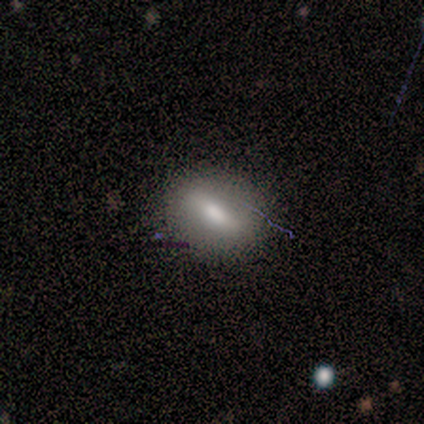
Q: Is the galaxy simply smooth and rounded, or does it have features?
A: smooth — 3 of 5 (60%).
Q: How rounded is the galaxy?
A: cigar-shaped — 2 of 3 (67%).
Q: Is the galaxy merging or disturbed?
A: none — 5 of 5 (100%).